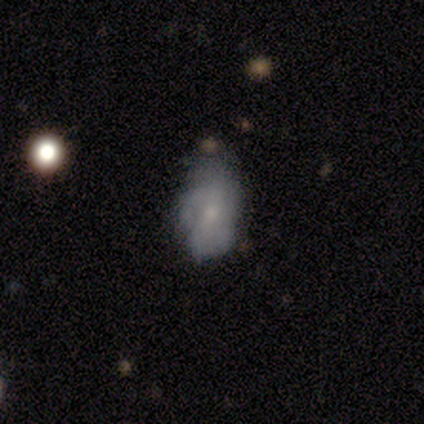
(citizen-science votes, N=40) This appears to be a smooth galaxy with no disk features (48%) that is in between round and cigar-shaped (89%). Merging: none (46%).